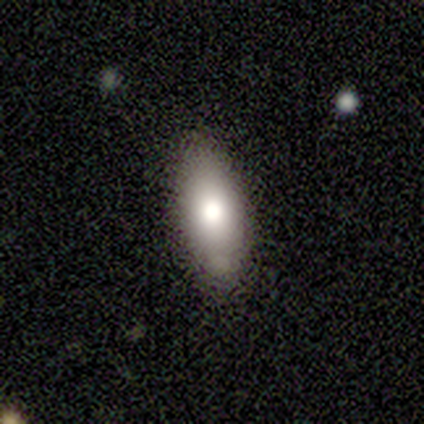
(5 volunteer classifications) smooth_or_featured: smooth (p=0.60) [alt: featured or disk p=0.20]
how_rounded: in between (p=1.00)
merging: none (p=0.75) [alt: minor disturbance p=0.25]